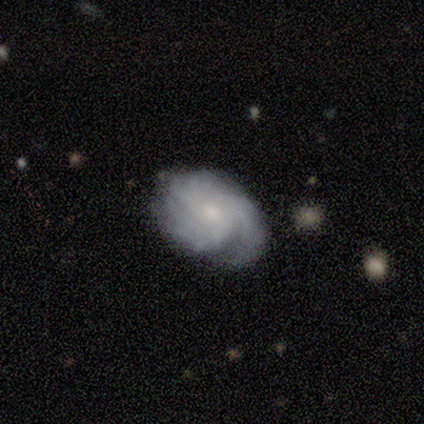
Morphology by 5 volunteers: featured or disk 80%, smooth 20%, star or artifact 0%. Down the decision tree: edge-on disk — no (100%); bar — no (100%); spiral arms — yes (100%); spiral arm count — can't tell (50%); spiral winding — tight (50%, tied with medium); bulge size — small (75%); merging — none (80%).